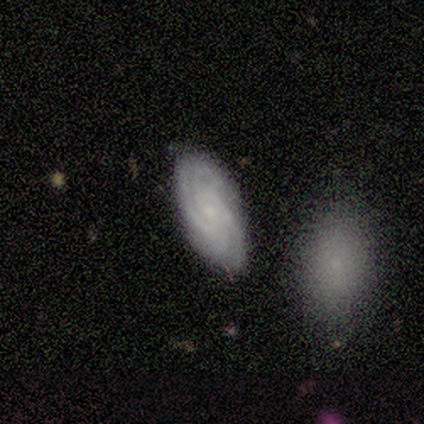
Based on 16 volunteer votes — featured or disk 94%, smooth 6%, star or artifact 0%. Down the decision tree: edge-on disk — no (100%); bar — no (87%); spiral arms — yes (100%); spiral arm count — 4 (40%); spiral winding — tight (67%); bulge size — small (93%); merging — none (88%).